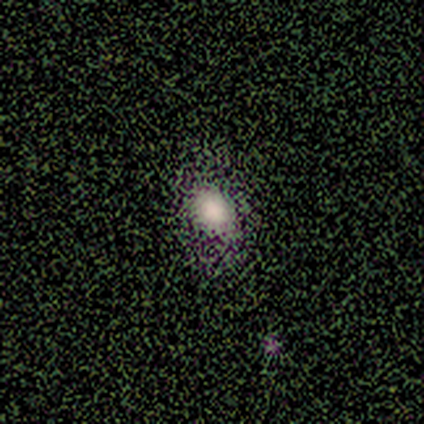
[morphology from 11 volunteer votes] Smooth or featured: smooth — 55% (star or artifact — 45%)
How rounded: round — 50% (tied with in between — 50%)
Merging: none — 83% (minor disturbance — 17%)